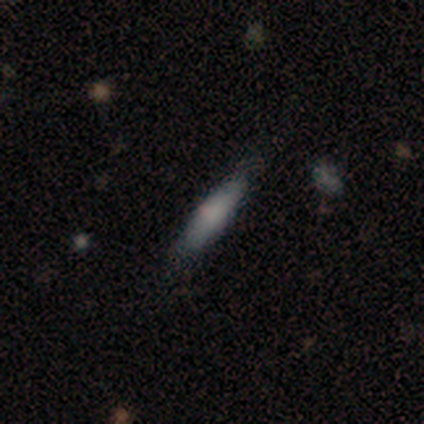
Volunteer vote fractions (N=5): Smooth or featured? smooth (60%)
How rounded? cigar-shaped (100%)
Merging? none (100%)